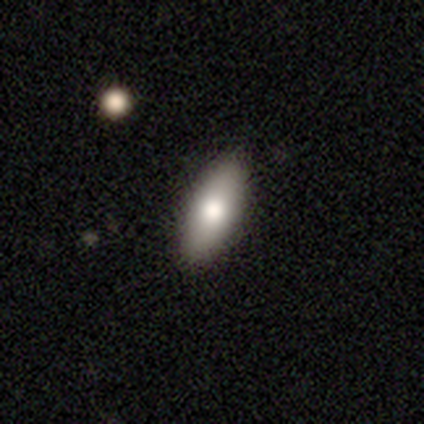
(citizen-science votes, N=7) Volunteers were most divided on "smooth or featured": smooth: 57%, featured or disk: 43%, star or artifact: 0%. More confident: merging — none (100%); how rounded — in between (75%).